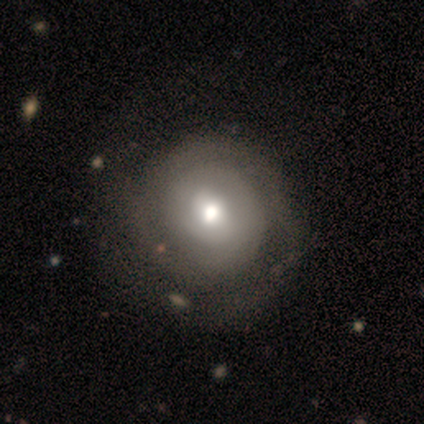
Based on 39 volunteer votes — A featured or disk galaxy (69%) with no bar (59%), 2 (40%) tight (90%) spiral arms (74%) and a moderate central bulge (63%).

Vote fractions:
- Smooth or featured? featured or disk: 69% / smooth: 28% / star or artifact: 3%
- Edge-on disk? no: 100% / yes: 0%
- Bar? no: 59% / weak: 41% / strong: 0%
- Spiral arms? yes: 74% / no: 26%
- Spiral winding? tight: 90% / medium: 5% / loose: 5%
- Spiral arm count? 2: 40% / can't tell: 30% / 1: 20% / 3: 5% / more than 4: 5% / 4: 0%
- Bulge size? moderate: 63% / small: 22% / large: 11% / dominant: 4% / none: 0%
- Merging? none: 47% / minor disturbance: 16% / major disturbance: 3% / merger: 0%